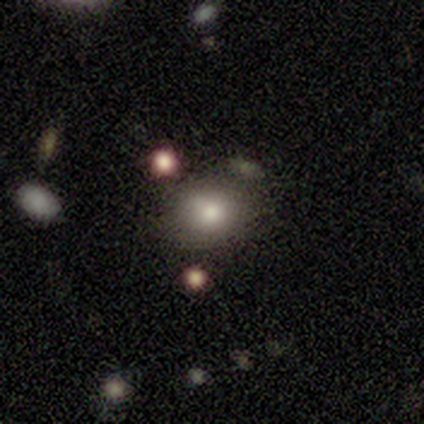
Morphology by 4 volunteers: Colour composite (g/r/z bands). It shows a smooth galaxy with no disk features (75%) that is round (67%). Merging: none (100%).